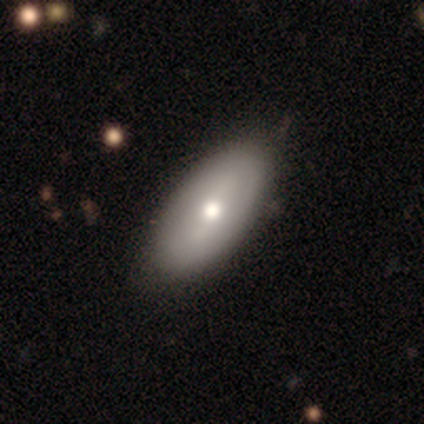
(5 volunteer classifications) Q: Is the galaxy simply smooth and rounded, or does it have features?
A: smooth — 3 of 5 (60%).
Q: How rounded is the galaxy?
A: in between — 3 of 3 (100%).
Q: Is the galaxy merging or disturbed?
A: none — 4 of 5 (80%).